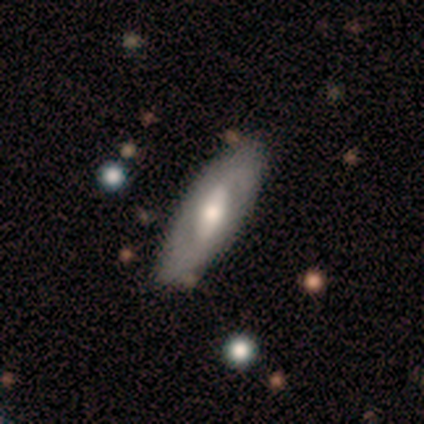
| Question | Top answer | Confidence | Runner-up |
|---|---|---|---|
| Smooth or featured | featured or disk | 71% | smooth (29%) |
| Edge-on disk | no | 60% | yes (40%) |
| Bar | weak | 67% | no (33%) |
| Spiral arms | no | 67% | yes (33%) |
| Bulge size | moderate | 100% | — |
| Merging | none | 86% | minor disturbance (14%) |